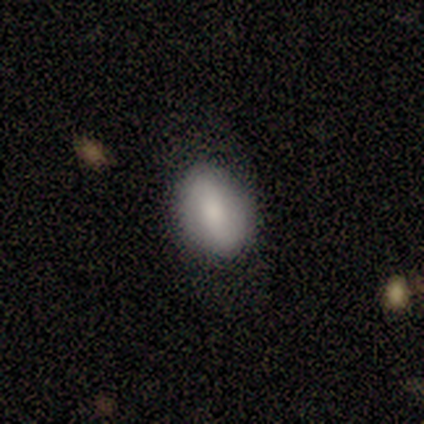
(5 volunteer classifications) A smooth galaxy with no disk features (80%) that is round (50%, tied with in between). Merging: none (80%).